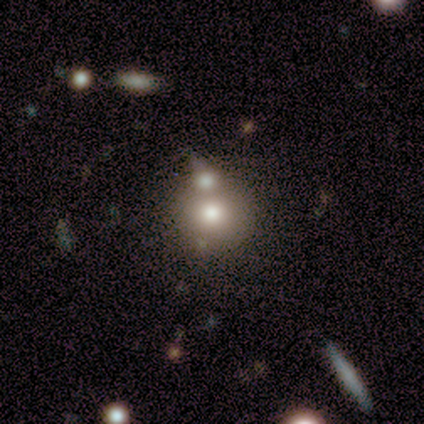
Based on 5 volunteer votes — A smooth galaxy with no disk features (40%, tied with featured or disk) that is round (50%, tied with cigar-shaped).

Vote fractions:
- Smooth or featured? smooth: 40% (tied) / featured or disk: 40% (tied) / star or artifact: 20%
- How rounded? round: 50% (tied) / cigar-shaped: 50% (tied) / in between: 0%
- Merging? merger: 50% / none: 25% / major disturbance: 25% / minor disturbance: 0%